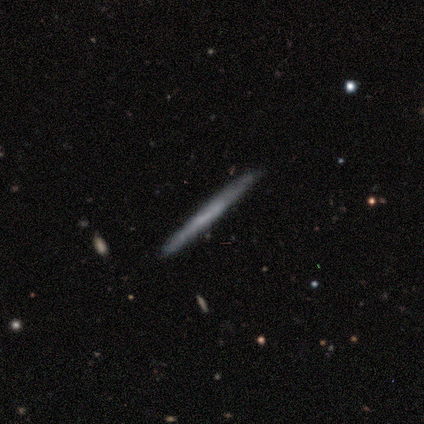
Smooth or featured: featured or disk — 100%
Edge-on disk: yes — 100%
Edge-on bulge: none — 100%
Merging: none — 100%